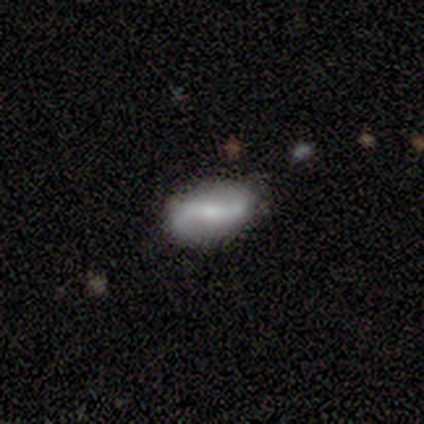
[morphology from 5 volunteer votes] featured or disk 60%, smooth 40%, star or artifact 0%. Down the decision tree: edge-on disk — no (100%); bar — strong (100%); spiral arms — yes (100%); spiral arm count — 2 (100%); spiral winding — loose (100%); bulge size — moderate (33%, tied with small and none); merging — none (100%).